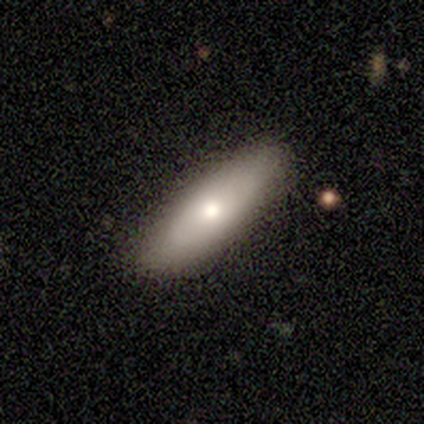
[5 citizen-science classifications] This appears to be a smooth galaxy with no disk features (60%) that is cigar-shaped (67%). Merging: none (80%).